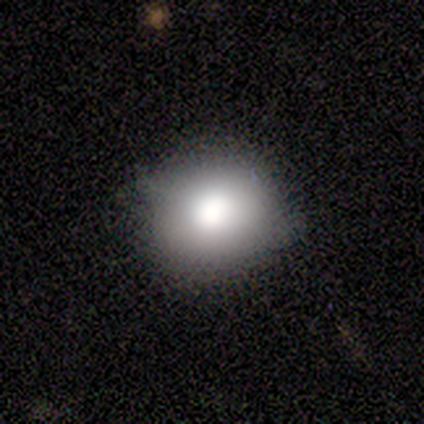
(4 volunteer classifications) Smooth or featured?
  - smooth: 75% *
  - featured or disk: 25%
  - star or artifact: 0%
How rounded?
  - round: 100% *
  - in between: 0%
  - cigar-shaped: 0%
Merging?
  - none: 50% * (tied)
  - minor disturbance: 50% * (tied)
  - major disturbance: 0%
  - merger: 0%